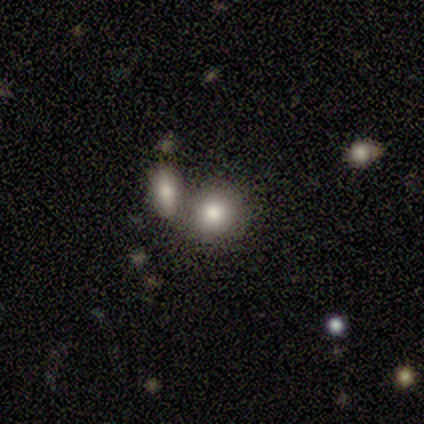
Smooth or featured? smooth (80%)
How rounded? round (75%)
Merging? merger (60%)